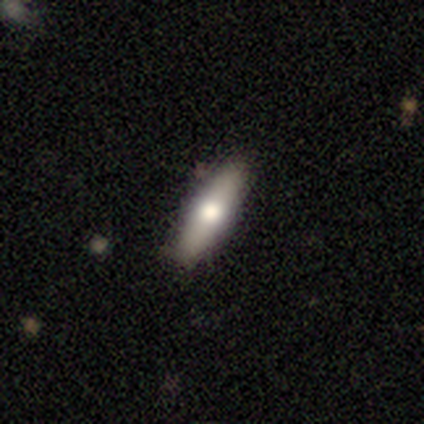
Smooth or featured? smooth (64%)
How rounded? cigar-shaped (56%)
Merging? none (95%)